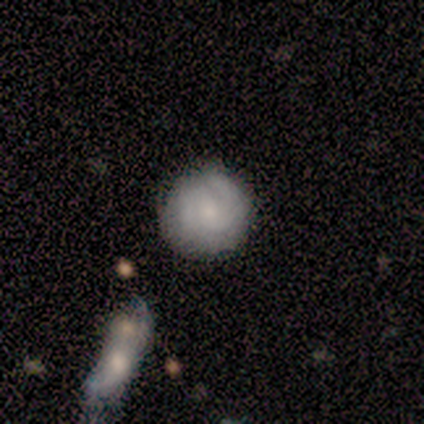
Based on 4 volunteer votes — Smooth or featured: featured or disk — 75% (star or artifact — 25%)
Edge-on disk: no — 67% (yes — 33%)
Bar: weak — 50% (tied with no — 50%)
Spiral arms: yes — 100%
Spiral winding: tight — 100%
Spiral arm count: 2 — 50% (tied with can't tell — 50%)
Bulge size: moderate — 50% (tied with small — 50%)
Merging: none — 67% (minor disturbance — 33%)